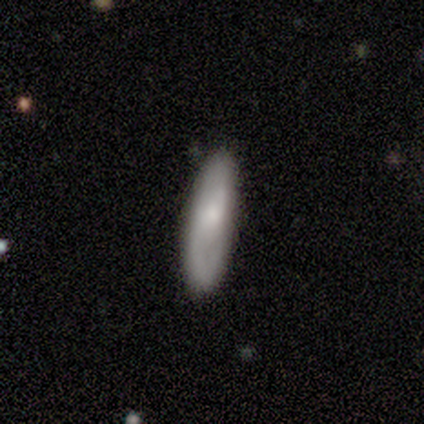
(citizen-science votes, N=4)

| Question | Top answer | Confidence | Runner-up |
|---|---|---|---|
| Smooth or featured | smooth | 50% | tied: featured or disk (50%) |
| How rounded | in between | 50% | tied: cigar-shaped (50%) |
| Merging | none | 75% | minor disturbance (25%) |